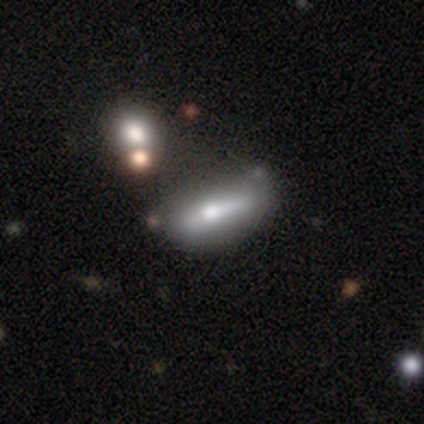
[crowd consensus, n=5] This appears to be a featured or disk galaxy (60%) with a strong bar (50%, tied with no), no spiral arms (100%) and a moderate central bulge (50%, tied with none). Merging: none (40%, tied with minor disturbance).